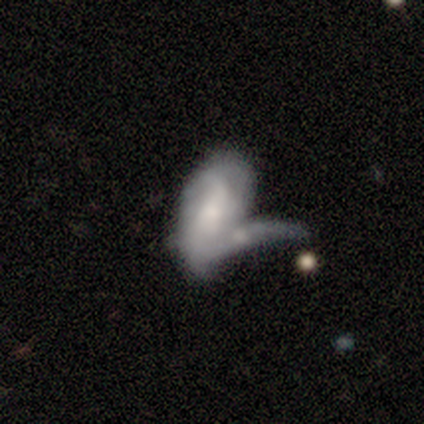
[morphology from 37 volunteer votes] smooth_or_featured: featured or disk (p=0.54) [alt: smooth p=0.41]
disk_edge_on: no (p=1.00)
bar: no (p=0.70) [alt: weak p=0.20]
has_spiral_arms: no (p=0.60) [alt: yes p=0.40]
bulge_size: moderate (p=0.50) [alt: small p=0.25]
merging: merger (p=0.49) [alt: major disturbance p=0.37]